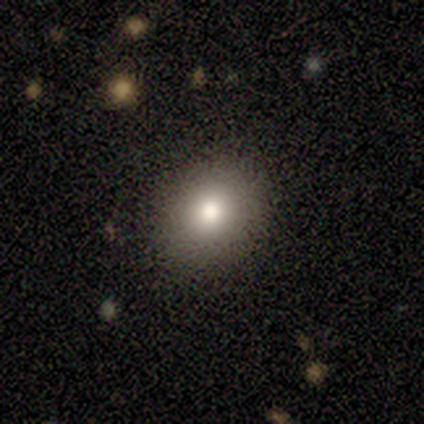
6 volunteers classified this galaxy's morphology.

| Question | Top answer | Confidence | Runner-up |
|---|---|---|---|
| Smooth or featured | smooth | 67% | star or artifact (33%) |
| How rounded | round | 75% | in between (25%) |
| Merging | none | 100% | — |